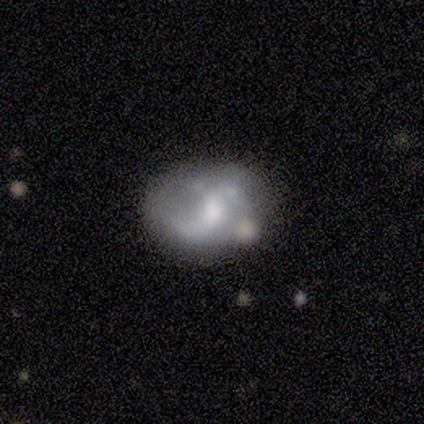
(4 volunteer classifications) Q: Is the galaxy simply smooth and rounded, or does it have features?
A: featured or disk — 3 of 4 (75%).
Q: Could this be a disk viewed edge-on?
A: no — 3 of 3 (100%).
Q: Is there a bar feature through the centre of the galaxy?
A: weak — 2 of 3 (67%).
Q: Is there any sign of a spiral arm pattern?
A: yes — 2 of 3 (67%).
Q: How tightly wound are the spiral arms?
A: loose — 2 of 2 (100%).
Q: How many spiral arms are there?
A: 2 — 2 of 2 (100%).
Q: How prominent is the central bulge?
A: moderate — 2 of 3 (67%).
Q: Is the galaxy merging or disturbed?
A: minor disturbance — 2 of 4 (50%).